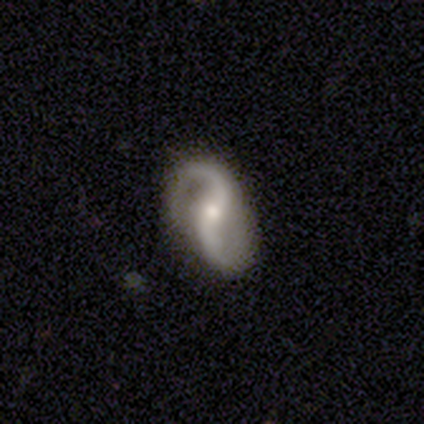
Overall: featured or disk (87%). Edge-on disk: no (97%). Bar: no (50%; weak 44%). Spiral arms: yes (97%). Spiral arm count: 2 (100%). Spiral winding: loose (68%; medium 29%). Bulge size: moderate (53%; small 44%). Merging: none (89%).